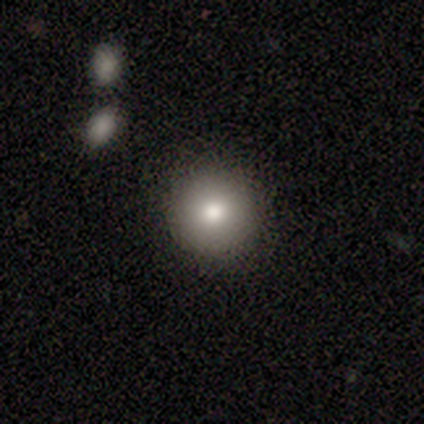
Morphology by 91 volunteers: type=smooth (80%); roundness=round (96%); merging=none (90%).